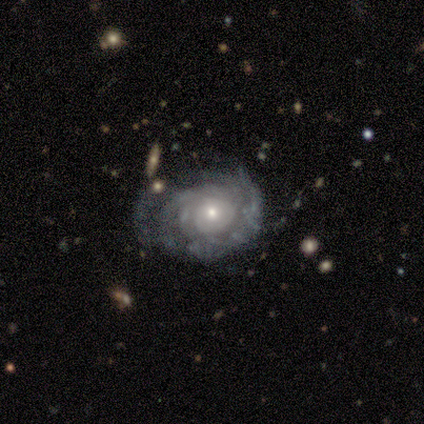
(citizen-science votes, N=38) Volunteers were most divided on "merging": none: 53%, minor disturbance: 36%, major disturbance: 8%, merger: 3%. More confident: edge-on disk — no (97%); spiral arms — yes (91%); bar — no (88%); smooth or featured — featured or disk (87%); bulge size — small (81%); spiral winding — tight (76%); spiral arm count — can't tell (52%).